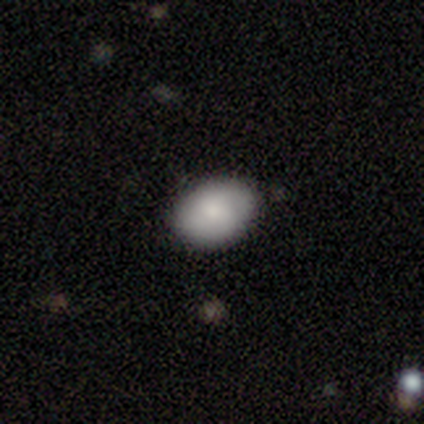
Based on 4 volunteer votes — Overall: smooth (100%). How rounded: in between (75%). Merging: none (75%).